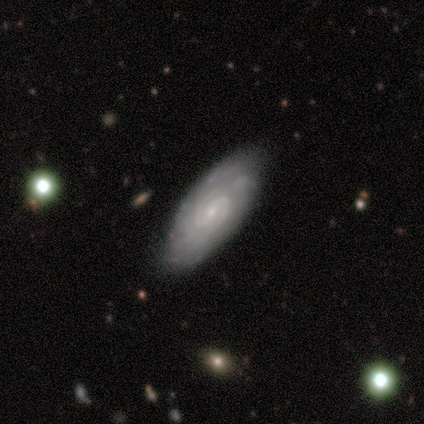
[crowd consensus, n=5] This is clearly a featured or disk galaxy (80%). It is clearly not viewed edge-on (100%). Bar: possibly weak (50%, tied with no). Spiral arm pattern: clearly yes (100%). Spiral arm count: clearly 2 (100%). Spiral winding: likely tight (75%). Central bulge: possibly small (50%). Merging: possibly none (50%).